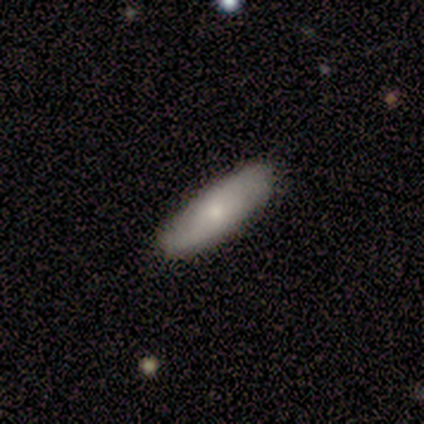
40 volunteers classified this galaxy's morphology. Q: Smooth or featured?
A: smooth (60%); runner-up: featured or disk (40%)
Q: How rounded?
A: in between (50%); tied with: cigar-shaped (50%)
Q: Merging?
A: none (92%); runner-up: minor disturbance (5%)